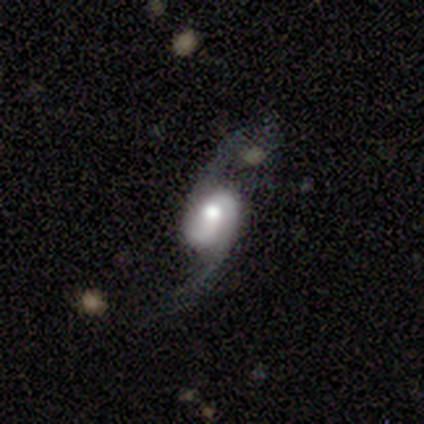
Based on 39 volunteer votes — featured or disk 92%, star or artifact 8%, smooth 0%. Down the decision tree: edge-on disk — no (97%); bar — weak (46%); spiral arms — yes (100%); spiral arm count — 2 (97%); spiral winding — loose (80%); bulge size — moderate (54%); merging — none (69%).